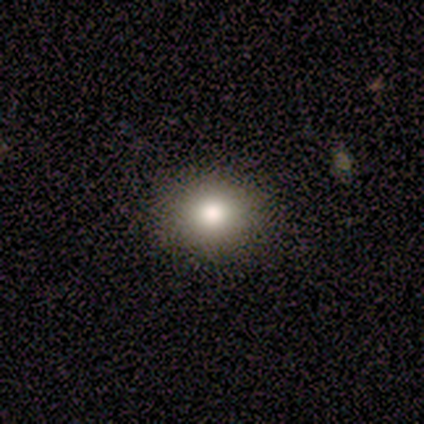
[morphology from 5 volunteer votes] Smooth or featured: smooth — 100%
How rounded: in between — 80% (round — 20%)
Merging: none — 80% (minor disturbance — 20%)